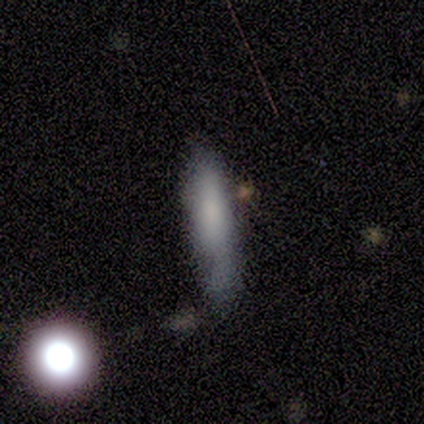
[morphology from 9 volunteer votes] smooth-or-featured: smooth: 67% | featured or disk: 22% | star or artifact: 11%
  how-rounded: cigar-shaped: 67% | round: 17% | in between: 17%
  merging: none: 75% | minor disturbance: 25% | major disturbance: 0% | merger: 0%